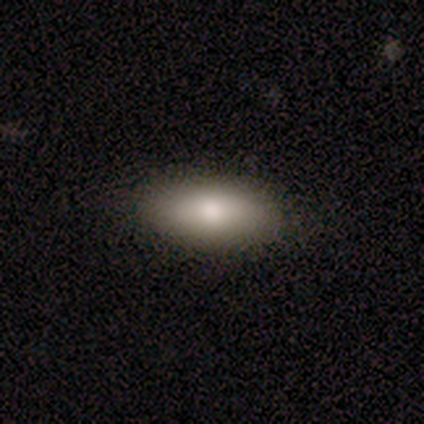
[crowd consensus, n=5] Smooth or featured?
  - smooth: 100% *
  - featured or disk: 0%
  - star or artifact: 0%
How rounded?
  - in between: 80% *
  - cigar-shaped: 20%
  - round: 0%
Merging?
  - none: 100% *
  - minor disturbance: 0%
  - major disturbance: 0%
  - merger: 0%